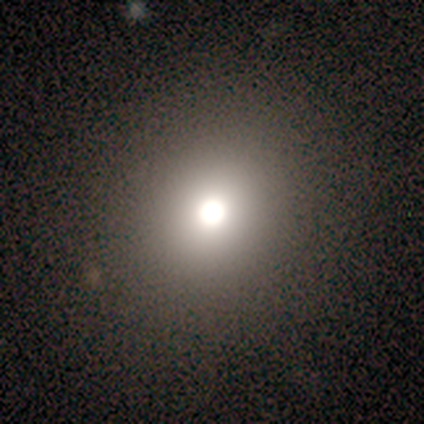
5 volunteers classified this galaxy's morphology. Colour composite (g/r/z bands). It shows a smooth galaxy with no disk features (40%, tied with featured or disk) that is round (100%). Merging: none (75%).